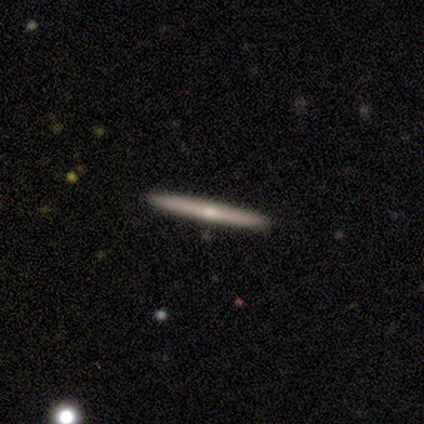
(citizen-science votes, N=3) Smooth or featured: featured or disk — 67% (smooth — 33%)
Edge-on disk: yes — 100%
Edge-on bulge: rounded — 100%
Merging: none — 67% (merger — 33%)